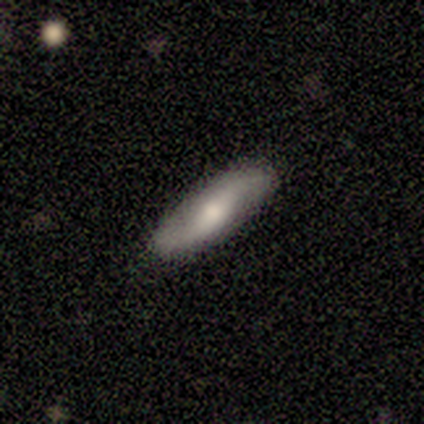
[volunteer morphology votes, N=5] This appears to be a featured or disk galaxy (60%) with no bar (100%), 2 (100%) loose (100%) spiral arms (100%) and a moderate central bulge (100%). Merging: none (60%).